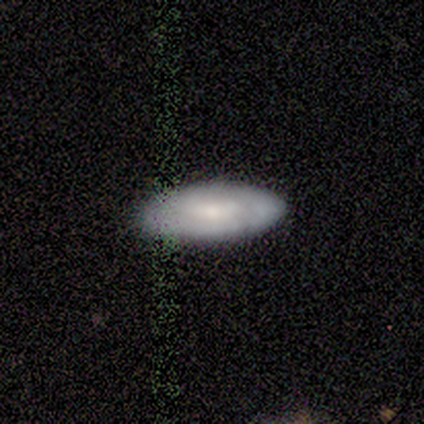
smooth_or_featured: smooth (p=0.50) [tied with: featured or disk p=0.50]
how_rounded: in between (p=1.00)
merging: none (p=1.00)